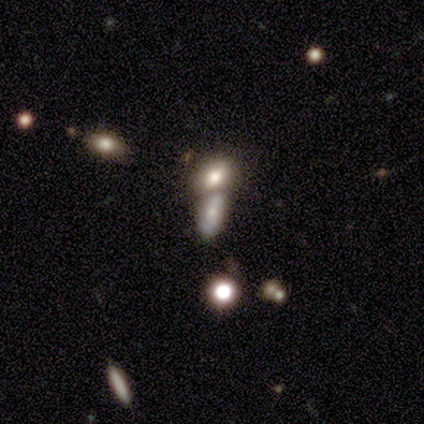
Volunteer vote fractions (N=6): smooth-or-featured: star or artifact: 50% | featured or disk: 33% | smooth: 17%